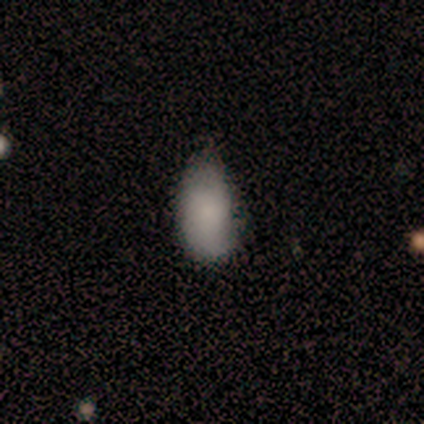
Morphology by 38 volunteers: smooth_or_featured: smooth (p=0.66) [alt: star or artifact p=0.18]
how_rounded: in between (p=0.88) [alt: cigar-shaped p=0.08]
merging: none (p=0.48) [tied with: minor disturbance p=0.48]